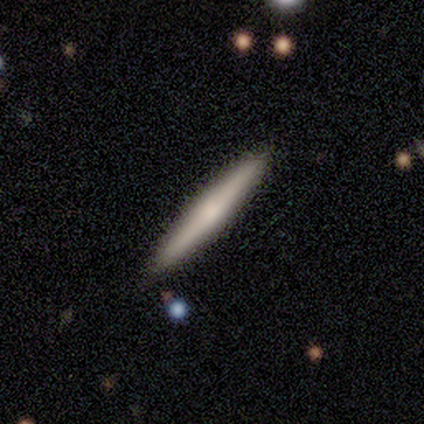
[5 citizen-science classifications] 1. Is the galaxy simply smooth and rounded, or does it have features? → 60% smooth, 40% featured or disk, 0% star or artifact.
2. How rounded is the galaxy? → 100% cigar-shaped, 0% round, 0% in between.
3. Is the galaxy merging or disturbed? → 100% none, 0% minor disturbance, 0% major disturbance, 0% merger.